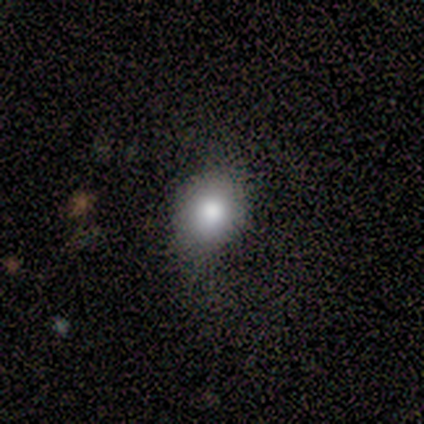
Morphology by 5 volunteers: Q: Smooth or featured?
A: smooth (80%); runner-up: star or artifact (20%)
Q: How rounded?
A: round (75%); runner-up: in between (25%)
Q: Merging?
A: none (50%); runner-up: minor disturbance (25%)